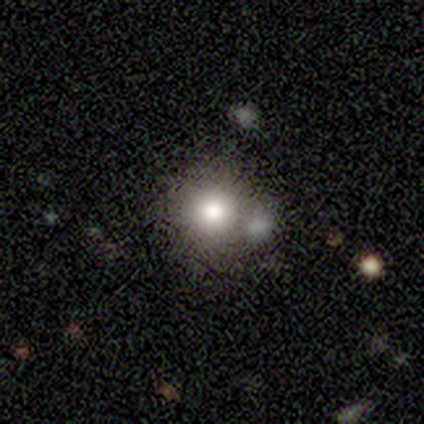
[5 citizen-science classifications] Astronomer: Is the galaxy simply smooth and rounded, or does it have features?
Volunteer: smooth — 100%.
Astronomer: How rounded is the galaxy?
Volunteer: round — 100%.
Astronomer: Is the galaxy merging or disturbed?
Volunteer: none — 80%.